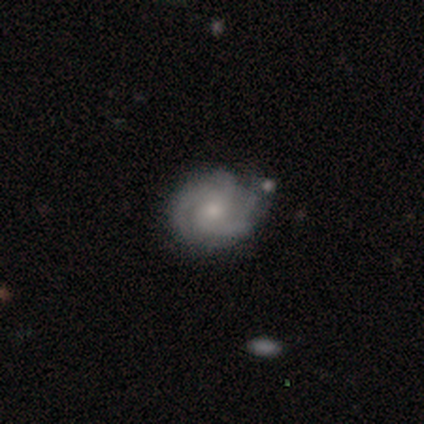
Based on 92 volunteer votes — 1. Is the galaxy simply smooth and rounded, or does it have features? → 84% featured or disk, 12% smooth, 4% star or artifact.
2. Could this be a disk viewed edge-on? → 95% no, 5% yes.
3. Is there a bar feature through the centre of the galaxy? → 70% no, 22% weak, 8% strong.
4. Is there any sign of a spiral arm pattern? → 90% yes, 10% no.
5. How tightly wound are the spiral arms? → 53% tight, 39% medium, 8% loose.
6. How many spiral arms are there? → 44% 3, 35% 2, 15% can't tell, 5% 4, 2% 1, 0% more than 4.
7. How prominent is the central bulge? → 55% small, 40% moderate, 4% none, 1% dominant, 0% large.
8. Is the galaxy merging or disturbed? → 68% none, 22% minor disturbance, 7% major disturbance, 3% merger.